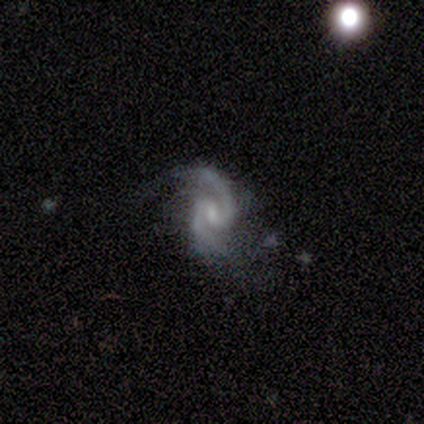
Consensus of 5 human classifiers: This appears to be a featured or disk galaxy (100%) with a weak bar (100%), 2 (100%) tight (40%, tied with loose) spiral arms (100%) and a small central bulge (80%). Merging: none (80%).